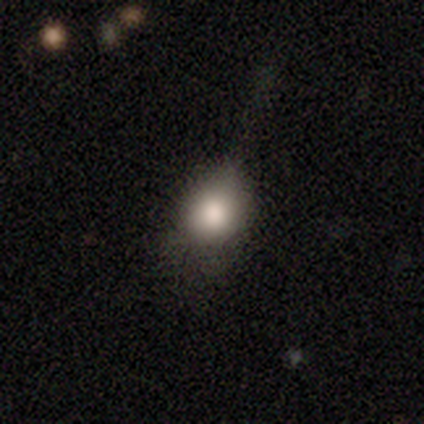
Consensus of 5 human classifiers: Volunteers were most divided on "merging": none: 60%, minor disturbance: 40%, major disturbance: 0%, merger: 0%. More confident: smooth or featured — smooth (100%); how rounded — in between (80%).